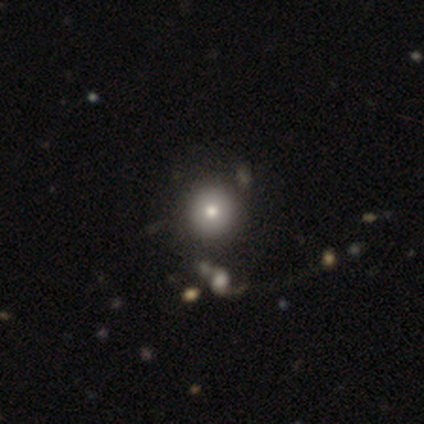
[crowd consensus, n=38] This appears to be a smooth galaxy with no disk features (71%) that is round (93%). Merging: none (61%).